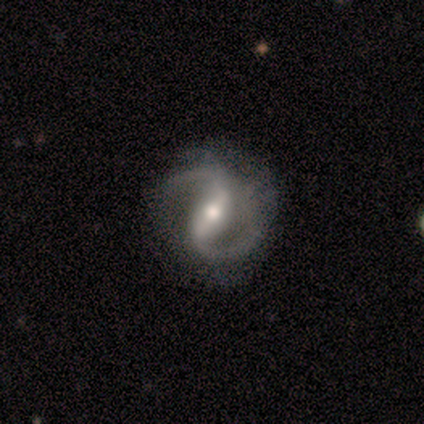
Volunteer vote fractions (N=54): smooth_or_featured: featured or disk (p=0.96) [alt: star or artifact p=0.04]
disk_edge_on: no (p=0.98) [alt: yes p=0.02]
bar: strong (p=0.59) [alt: weak p=0.29]
has_spiral_arms: yes (p=1.00)
spiral_winding: medium (p=0.61) [alt: loose p=0.27]
spiral_arm_count: 2 (p=0.96) [alt: 1 p=0.02]
bulge_size: moderate (p=0.71) [alt: small p=0.25]
merging: none (p=0.73) [alt: minor disturbance p=0.17]